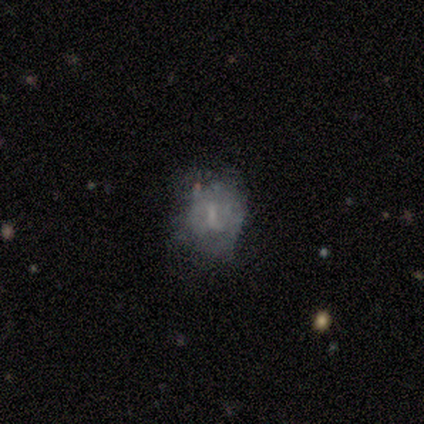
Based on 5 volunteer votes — A featured or disk galaxy (60%) with no bar (67%), no spiral arms (67%) and a small central bulge (67%). Merging: none (67%).